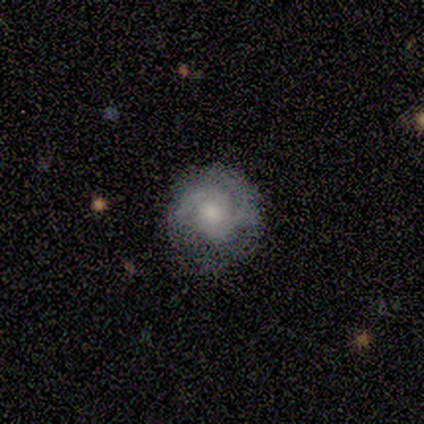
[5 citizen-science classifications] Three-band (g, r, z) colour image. It shows a featured or disk galaxy (80%) with a weak bar (50%), 2 (75%) loose (50%) spiral arms (100%) and a large central bulge (50%, tied with moderate). Merging: none (80%).